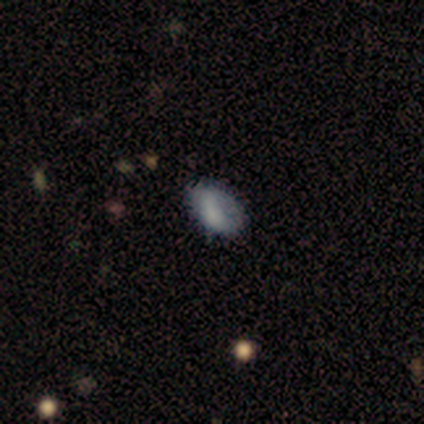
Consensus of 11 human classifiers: smooth-or-featured: smooth: 55% | featured or disk: 45% | star or artifact: 0%
  how-rounded: in between: 100% | round: 0% | cigar-shaped: 0%
  merging: none: 45% | minor disturbance: 27% | major disturbance: 27% | merger: 0%